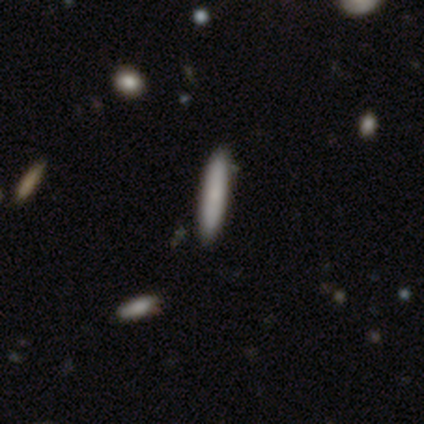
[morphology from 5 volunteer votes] Volunteers were most divided on "how rounded": cigar-shaped: 75%, round: 25%, in between: 0%. More confident: merging — none (100%); smooth or featured — smooth (80%).